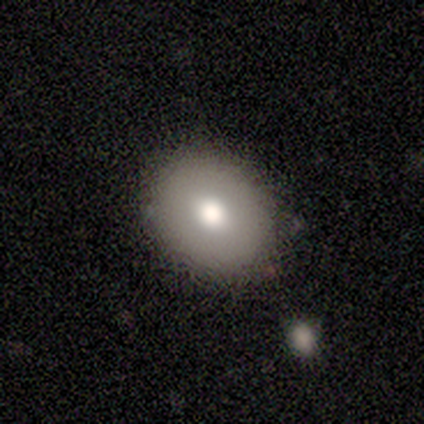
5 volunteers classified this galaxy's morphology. Smooth or featured: smooth — 60% (featured or disk — 40%)
How rounded: in between — 67% (round — 33%)
Merging: none — 100%